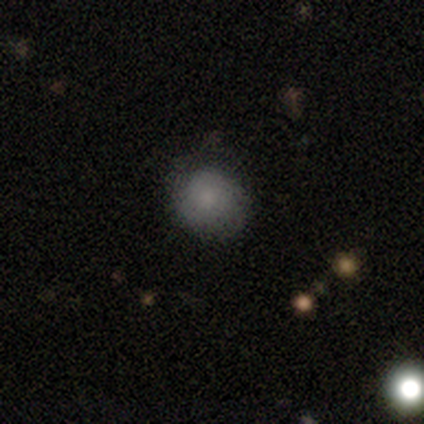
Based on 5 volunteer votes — smooth_or_featured: smooth (p=1.00)
how_rounded: round (p=1.00)
merging: none (p=0.80) [alt: major disturbance p=0.20]